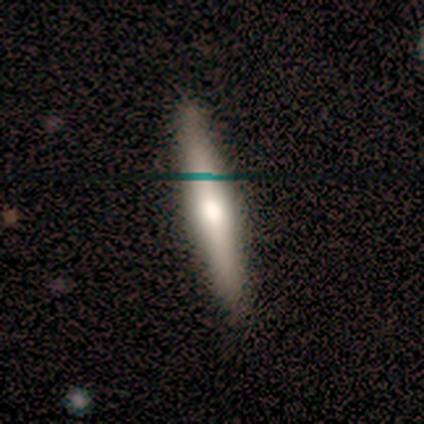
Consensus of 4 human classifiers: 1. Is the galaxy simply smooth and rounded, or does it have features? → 75% featured or disk, 25% smooth, 0% star or artifact.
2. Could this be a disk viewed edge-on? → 67% yes, 33% no.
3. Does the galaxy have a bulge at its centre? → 50% none (tied), 50% rounded (tied), 0% boxy.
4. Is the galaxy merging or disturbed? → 75% none, 25% minor disturbance, 0% major disturbance, 0% merger.